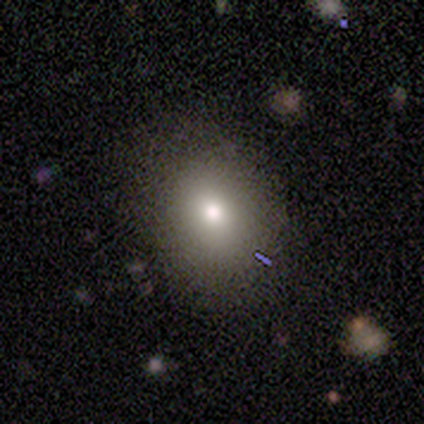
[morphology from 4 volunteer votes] This is clearly a smooth galaxy (100%). How rounded: likely in between (75%). Merging: possibly none (50%, tied with minor disturbance).